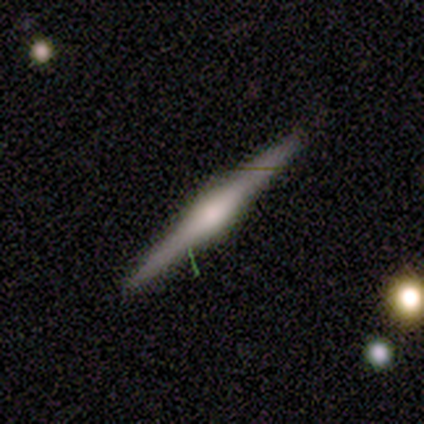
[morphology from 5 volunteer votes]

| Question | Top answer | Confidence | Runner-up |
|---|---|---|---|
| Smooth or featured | featured or disk | 100% | — |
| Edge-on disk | yes | 100% | — |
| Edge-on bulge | boxy | 60% | rounded (40%) |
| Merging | none | 100% | — |